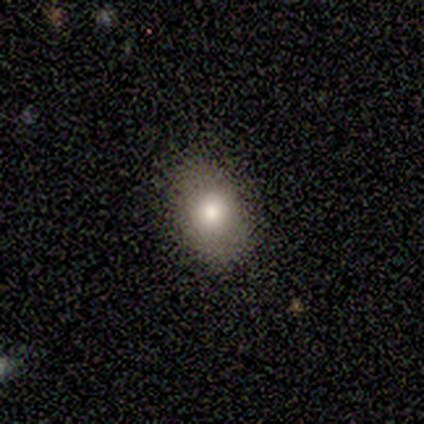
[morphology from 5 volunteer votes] Smooth or featured: smooth — 40% (tied with star or artifact — 40%)
How rounded: round — 50% (tied with in between — 50%)
Merging: none — 67% (minor disturbance — 33%)